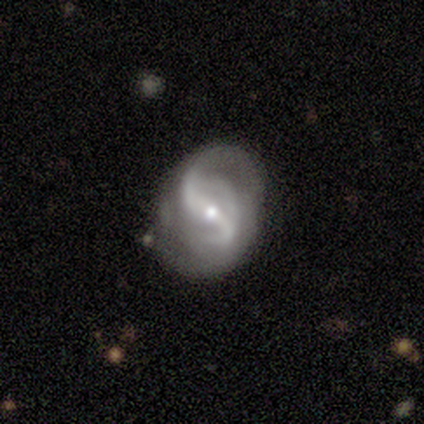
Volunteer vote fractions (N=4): Smooth or featured? 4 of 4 (100%) said featured or disk. Edge-on disk? 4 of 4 (100%) said no. Bar? 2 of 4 (50%) said strong. Spiral arms? 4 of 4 (100%) said yes. Spiral winding? 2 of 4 (50%) said medium. Spiral arm count? 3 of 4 (75%) said 2. Bulge size? 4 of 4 (100%) said small. Merging? 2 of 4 (50%, tied with minor disturbance) said none.